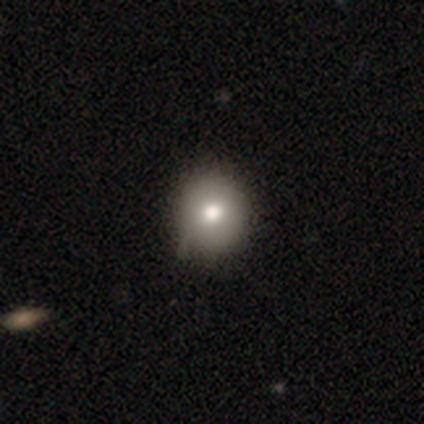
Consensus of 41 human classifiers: smooth_or_featured: smooth (p=0.80) [alt: featured or disk p=0.17]
how_rounded: round (p=0.79) [alt: in between p=0.21]
merging: none (p=0.72) [alt: minor disturbance p=0.15]